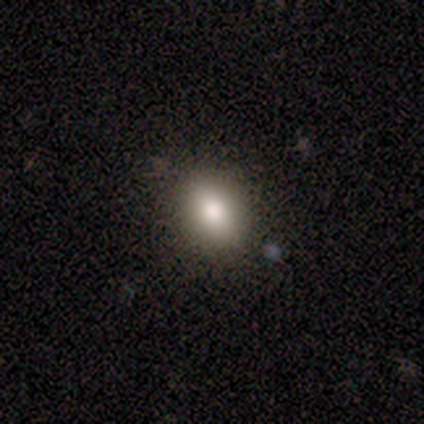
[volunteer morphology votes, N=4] smooth-or-featured: smooth: 100% | featured or disk: 0% | star or artifact: 0%
  how-rounded: round: 50% (tied) | in between: 50% (tied) | cigar-shaped: 0%
  merging: none: 100% | minor disturbance: 0% | major disturbance: 0% | merger: 0%